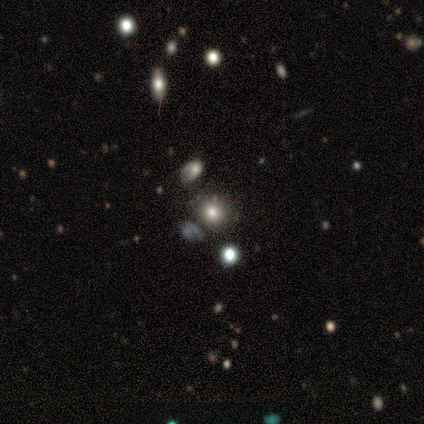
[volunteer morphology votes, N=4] Smooth or featured? 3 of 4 (75%) said star or artifact.